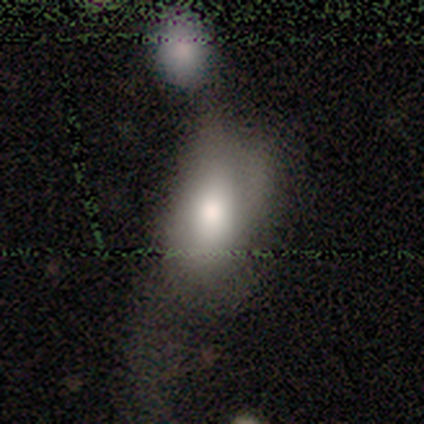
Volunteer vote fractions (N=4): Morphology: type=smooth (50%); roundness=in between (100%); merging=minor disturbance (67%).